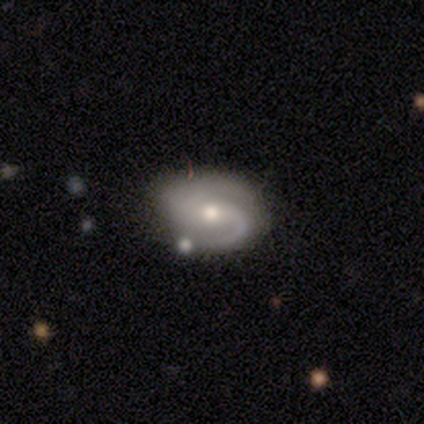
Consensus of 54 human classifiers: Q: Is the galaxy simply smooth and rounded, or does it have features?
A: featured or disk — 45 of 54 (83%).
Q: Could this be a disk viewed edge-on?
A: no — 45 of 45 (100%).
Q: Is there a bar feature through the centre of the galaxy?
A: no — 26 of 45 (58%).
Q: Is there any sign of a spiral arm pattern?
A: yes — 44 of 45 (98%).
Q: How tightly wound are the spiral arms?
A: medium — 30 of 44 (68%).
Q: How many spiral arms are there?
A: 2 — 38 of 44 (86%).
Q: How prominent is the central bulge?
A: moderate — 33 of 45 (73%).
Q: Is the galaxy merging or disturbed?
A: none — 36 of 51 (71%).